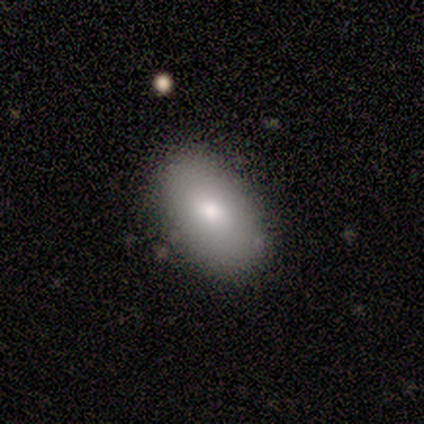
A smooth galaxy with no disk features (100%) that is in between round and cigar-shaped (100%).

Vote fractions:
- Smooth or featured? smooth: 100% / featured or disk: 0% / star or artifact: 0%
- How rounded? in between: 100% / round: 0% / cigar-shaped: 0%
- Merging? none: 100% / minor disturbance: 0% / major disturbance: 0% / merger: 0%